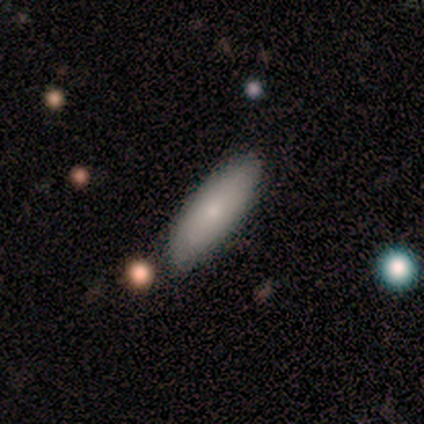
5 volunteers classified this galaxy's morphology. A smooth galaxy with no disk features (100%) that is in between round and cigar-shaped (100%). Merging: none (80%).